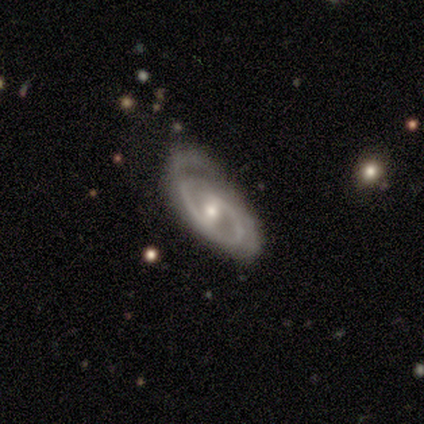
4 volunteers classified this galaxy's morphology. Smooth or featured?
  - featured or disk: 100% *
  - smooth: 0%
  - star or artifact: 0%
Edge-on disk?
  - no: 100% *
  - yes: 0%
Bar?
  - no: 50% *
  - strong: 25%
  - weak: 25%
Spiral arms?
  - yes: 50% * (tied)
  - no: 50% * (tied)
Spiral winding?
  - medium: 100% *
  - tight: 0%
  - loose: 0%
Spiral arm count?
  - 2: 100% *
  - 1: 0%
  - 3: 0%
  - 4: 0%
  - more than 4: 0%
  - can't tell: 0%
Bulge size?
  - moderate: 75% *
  - small: 25%
  - dominant: 0%
  - large: 0%
  - none: 0%
Merging?
  - none: 100% *
  - minor disturbance: 0%
  - major disturbance: 0%
  - merger: 0%